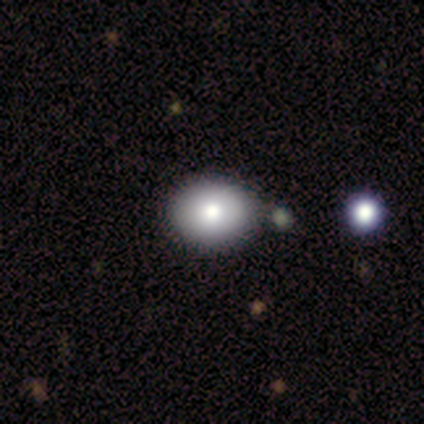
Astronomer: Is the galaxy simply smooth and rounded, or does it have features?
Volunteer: smooth — 80%.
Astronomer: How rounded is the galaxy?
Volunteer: round — 50%, tied with in between at 50%.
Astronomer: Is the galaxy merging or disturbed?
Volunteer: none — 80%.